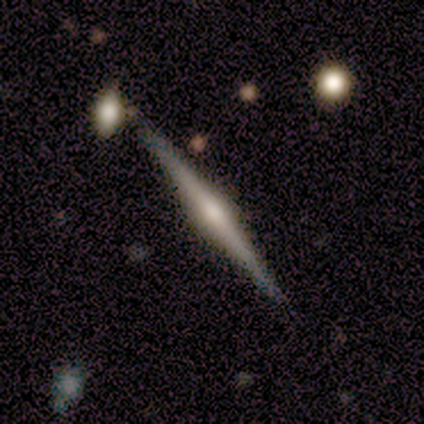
Overall: featured or disk (100%). Edge-on disk: yes (100%). Edge-on bulge: rounded (50%; boxy 25%). Merging: none (100%).